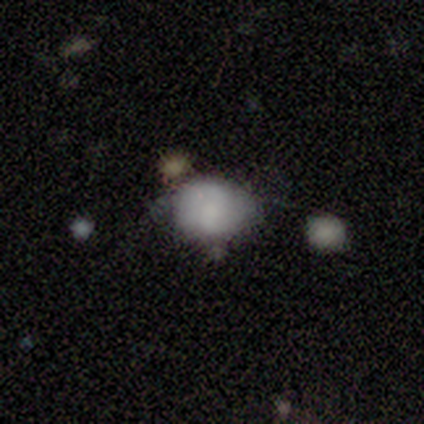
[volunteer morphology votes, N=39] A smooth galaxy with no disk features (79%) that is round (65%).

Vote fractions:
- Smooth or featured? smooth: 79% / featured or disk: 18% / star or artifact: 3%
- How rounded? round: 65% / in between: 35% / cigar-shaped: 0%
- Merging? none: 42% / minor disturbance: 39% / major disturbance: 13% / merger: 5%